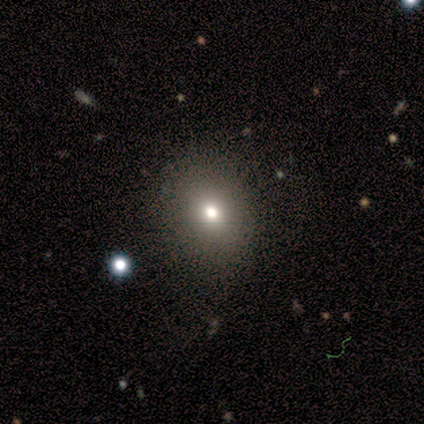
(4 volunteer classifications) smooth-or-featured: smooth: 50% | featured or disk: 25% | star or artifact: 25%
  how-rounded: round: 100% | in between: 0% | cigar-shaped: 0%
  merging: none: 100% | minor disturbance: 0% | major disturbance: 0% | merger: 0%